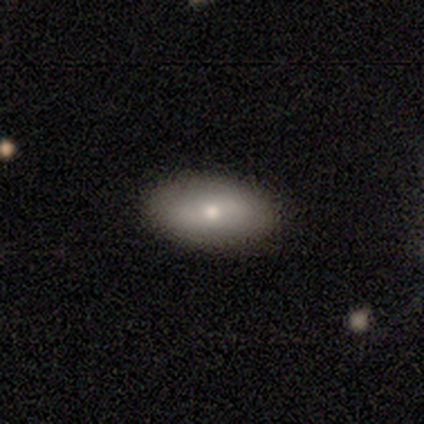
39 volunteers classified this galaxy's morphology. Smooth or featured? 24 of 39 (62%) said smooth. How rounded? 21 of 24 (88%) said in between. Merging? 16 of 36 (44%) said none.